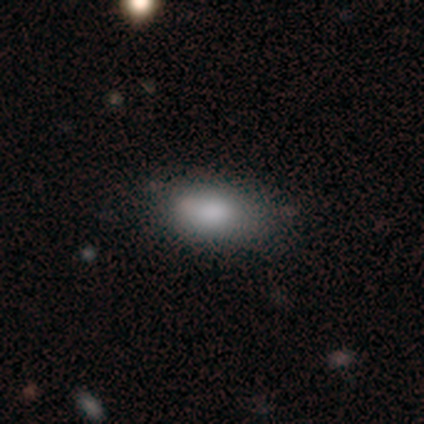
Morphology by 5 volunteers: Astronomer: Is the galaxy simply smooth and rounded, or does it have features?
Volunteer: smooth — 80%.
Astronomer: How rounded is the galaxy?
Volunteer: in between — 100%.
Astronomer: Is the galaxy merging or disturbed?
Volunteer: none — 50%, tied with minor disturbance at 50%.